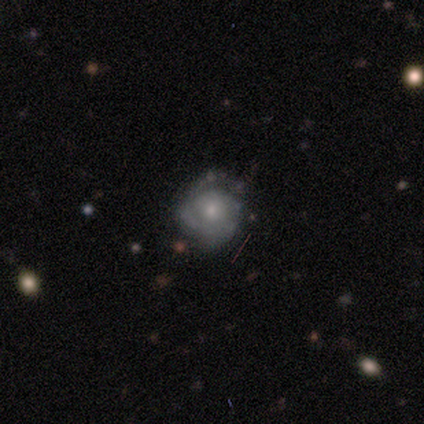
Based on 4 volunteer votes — Morphology: type=featured or disk (100%); edge-on=no (100%); bar=no (75%); spiral arms=yes (75%); winding=tight (67%); arm count=can't tell (67%); bulge=small (75%); merging=none (50%, tied with minor disturbance).